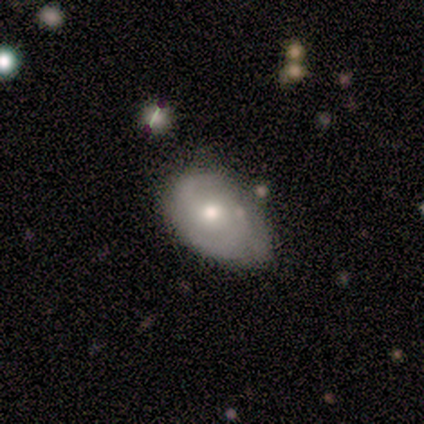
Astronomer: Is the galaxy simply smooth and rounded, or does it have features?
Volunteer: smooth — 80%.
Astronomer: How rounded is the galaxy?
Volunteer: in between — 75%.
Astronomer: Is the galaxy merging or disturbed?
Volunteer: minor disturbance — 80%.